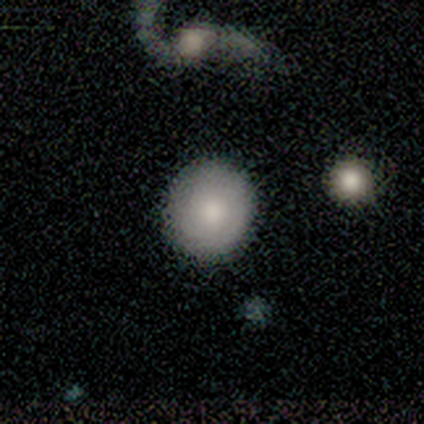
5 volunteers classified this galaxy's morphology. A smooth galaxy with no disk features (80%) that is round (100%). Merging: none (100%).